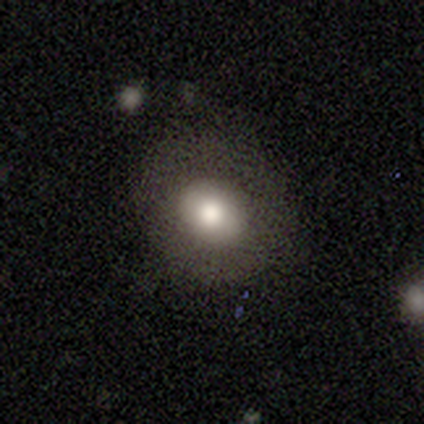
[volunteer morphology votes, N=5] smooth-or-featured: smooth: 60% | featured or disk: 40% | star or artifact: 0%
  how-rounded: round: 100% | in between: 0% | cigar-shaped: 0%
  merging: none: 80% | minor disturbance: 20% | major disturbance: 0% | merger: 0%